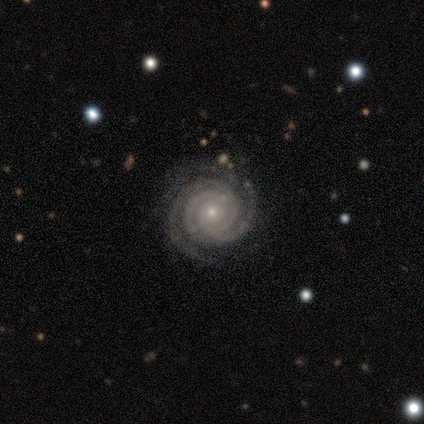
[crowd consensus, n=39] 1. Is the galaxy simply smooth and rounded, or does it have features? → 97% featured or disk, 3% star or artifact, 0% smooth.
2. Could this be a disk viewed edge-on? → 95% no, 5% yes.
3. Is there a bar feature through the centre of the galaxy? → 72% no, 17% strong, 11% weak.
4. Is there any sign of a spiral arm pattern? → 100% yes, 0% no.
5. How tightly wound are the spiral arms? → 94% tight, 3% medium, 3% loose.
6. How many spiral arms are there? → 44% 3, 28% 4, 11% 2, 11% can't tell, 6% more than 4, 0% 1.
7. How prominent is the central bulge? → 81% small, 14% moderate, 3% dominant, 3% large, 0% none.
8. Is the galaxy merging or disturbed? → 82% none, 16% minor disturbance, 3% merger, 0% major disturbance.